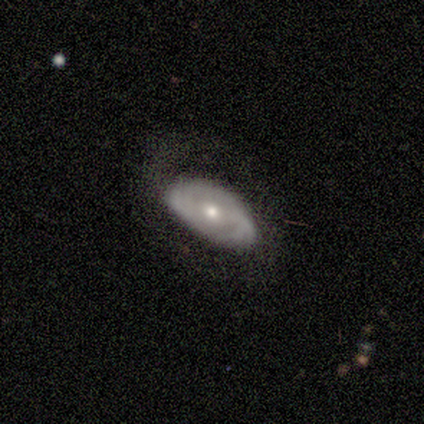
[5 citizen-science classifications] smooth_or_featured: featured or disk (p=0.80) [alt: smooth p=0.20]
disk_edge_on: yes (p=0.50) [tied with: no p=0.50]
edge_on_bulge: rounded (p=1.00)
merging: none (p=0.80) [alt: major disturbance p=0.20]